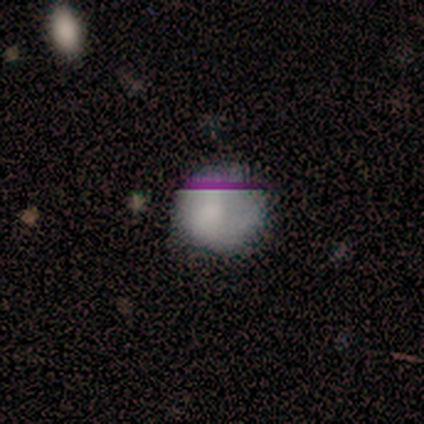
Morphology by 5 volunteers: Q: Smooth or featured?
A: smooth (100%)
Q: How rounded?
A: round (100%)
Q: Merging?
A: none (40%); tied with: major disturbance (40%)